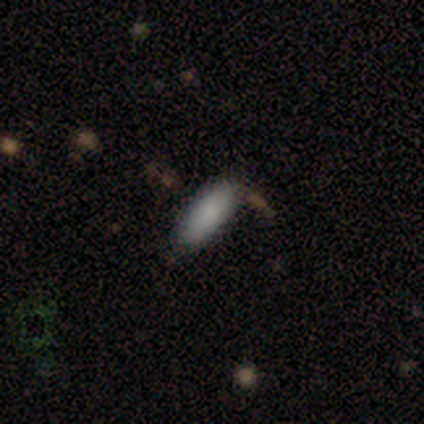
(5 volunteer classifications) Overall: smooth (80%). How rounded: in between (100%). Merging: none (100%).